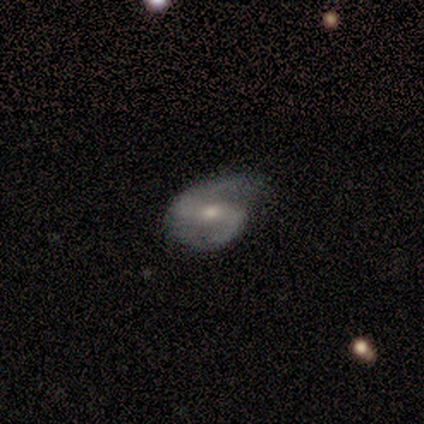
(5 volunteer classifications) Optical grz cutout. It shows a featured or disk galaxy (100%) with a strong bar (40%, tied with no), 2 (100%) medium (60%) spiral arms (100%) and a moderate central bulge (60%). Merging: none (80%).